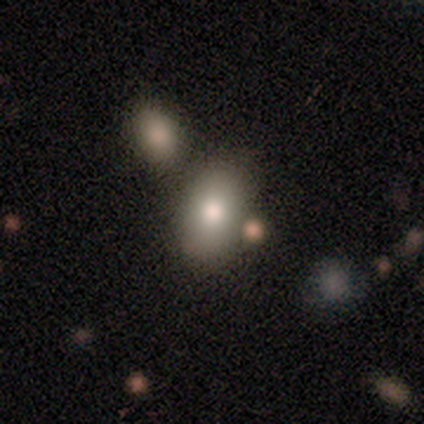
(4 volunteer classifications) Smooth or featured? smooth (100%)
How rounded? in between (75%)
Merging? none (75%)